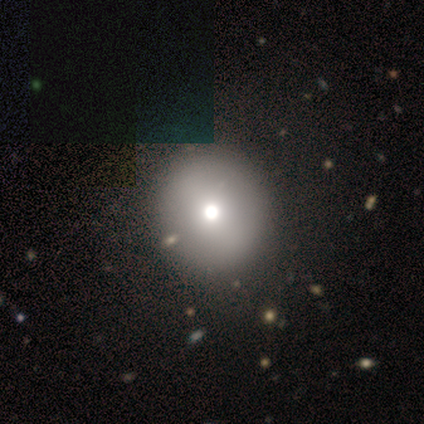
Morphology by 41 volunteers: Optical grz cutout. It shows a smooth galaxy with no disk features (78%) that is round (91%). Merging: none (50%).